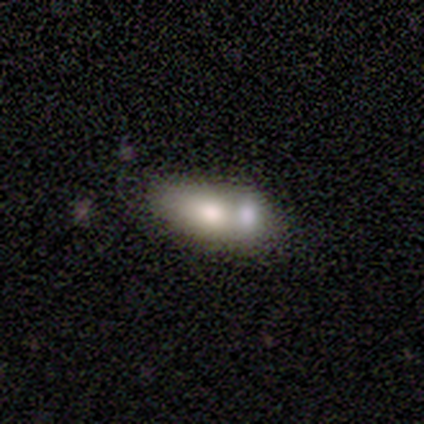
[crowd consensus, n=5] This appears to be a smooth galaxy with no disk features (80%) that is in between round and cigar-shaped (50%, tied with cigar-shaped). Merging: merger (60%).